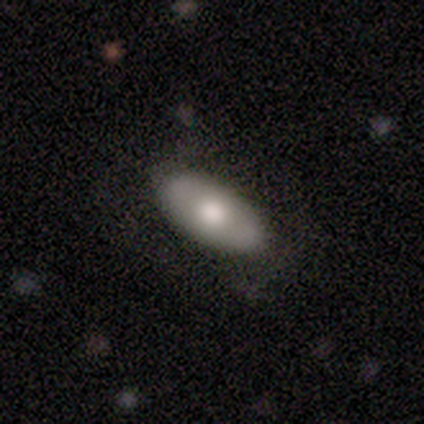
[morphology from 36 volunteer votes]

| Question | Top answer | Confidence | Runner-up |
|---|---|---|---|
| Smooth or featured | smooth | 69% | featured or disk (25%) |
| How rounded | in between | 96% | cigar-shaped (4%) |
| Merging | none | 74% | minor disturbance (21%) |